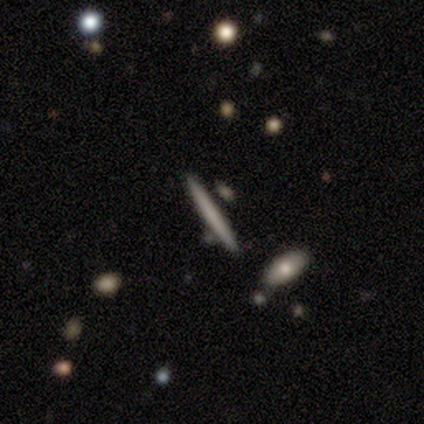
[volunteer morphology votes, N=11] Q: Smooth or featured?
A: smooth (73%); runner-up: featured or disk (27%)
Q: How rounded?
A: cigar-shaped (100%)
Q: Merging?
A: none (82%); runner-up: minor disturbance (9%)